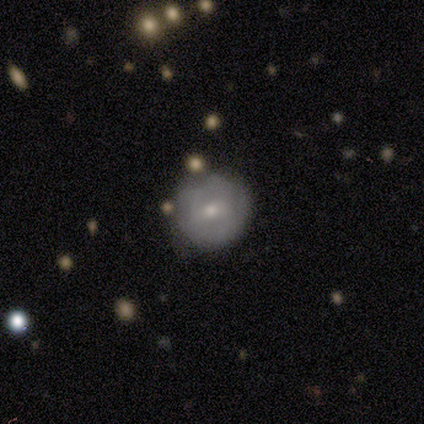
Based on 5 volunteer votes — Smooth or featured? 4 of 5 (80%) said smooth. How rounded? 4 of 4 (100%) said round. Merging? 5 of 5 (100%) said none.